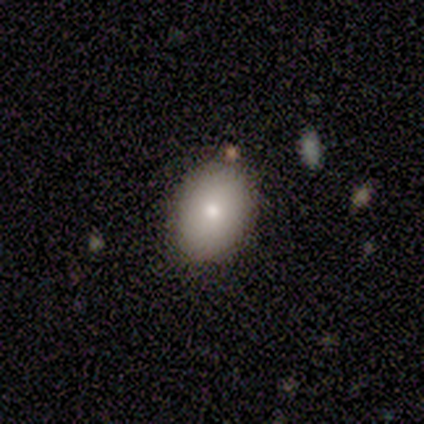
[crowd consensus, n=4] Smooth or featured: smooth — 75% (featured or disk — 25%)
How rounded: round — 67% (in between — 33%)
Merging: none — 75% (merger — 25%)